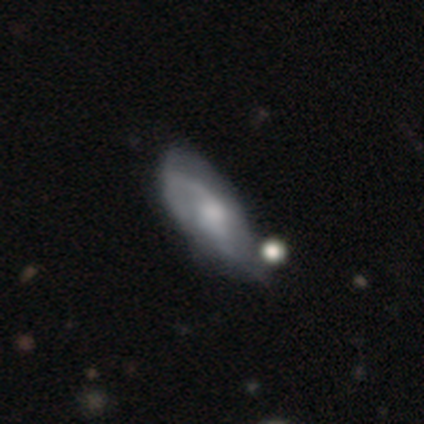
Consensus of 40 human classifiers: featured or disk 85%, smooth 15%, star or artifact 0%. Down the decision tree: edge-on disk — no (91%); bar — no (48%); spiral arms — yes (90%); spiral arm count — 2 (68%); spiral winding — medium (46%); bulge size — moderate (48%); merging — none (30%).